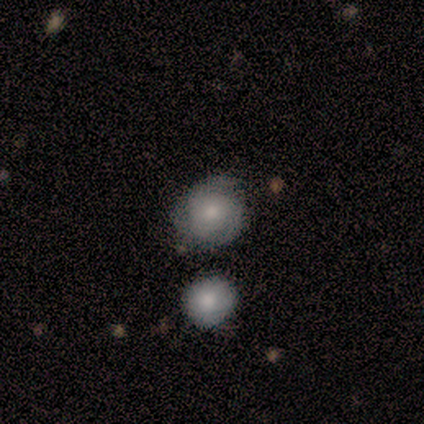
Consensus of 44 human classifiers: Smooth or featured? smooth (48%)
How rounded? round (95%)
Merging? none (67%)